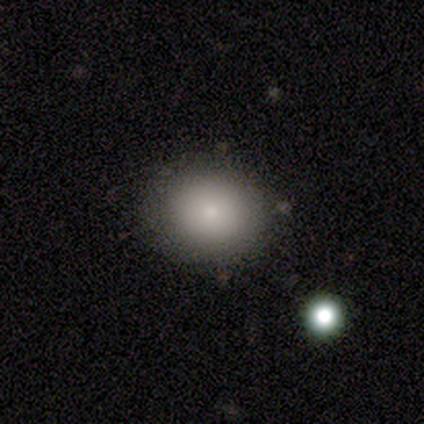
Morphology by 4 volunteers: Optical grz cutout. It shows a smooth galaxy with no disk features (100%) that is round (75%). Merging: none (100%).